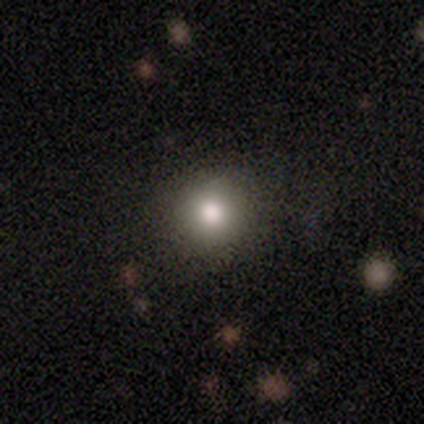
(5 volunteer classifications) Smooth or featured? 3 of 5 (60%) said smooth. How rounded? 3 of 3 (100%) said round. Merging? 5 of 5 (100%) said none.